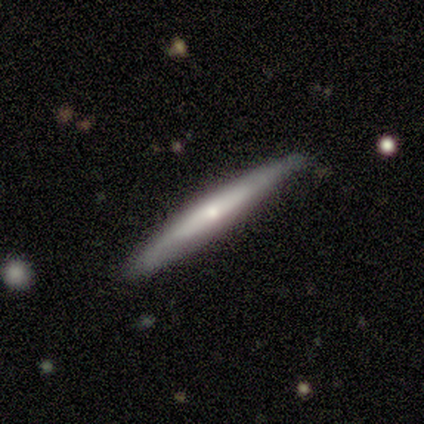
Morphology: type=featured or disk (80%); edge-on=yes (92%); edge-on bulge=rounded (55%); merging=none (100%).